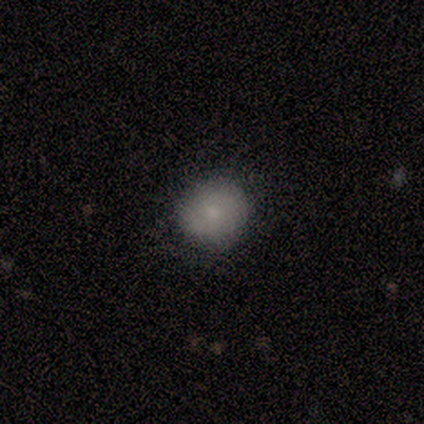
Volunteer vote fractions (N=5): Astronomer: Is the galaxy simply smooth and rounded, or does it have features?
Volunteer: smooth — 100%.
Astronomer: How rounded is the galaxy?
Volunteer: round — 100%.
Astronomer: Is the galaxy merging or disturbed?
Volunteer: none — 60% (runner-up: minor disturbance, 40%).